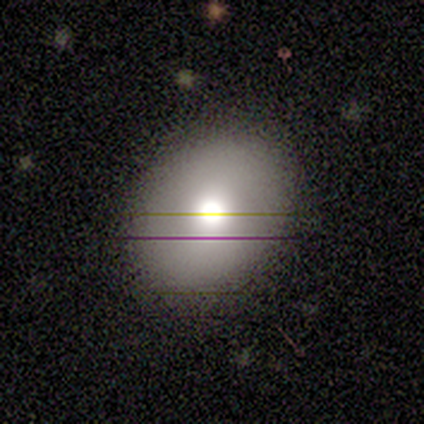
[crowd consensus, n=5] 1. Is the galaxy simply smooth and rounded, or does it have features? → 80% smooth, 20% featured or disk, 0% star or artifact.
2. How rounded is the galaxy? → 50% round (tied), 50% in between (tied), 0% cigar-shaped.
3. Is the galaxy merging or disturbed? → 80% none, 20% minor disturbance, 0% major disturbance, 0% merger.